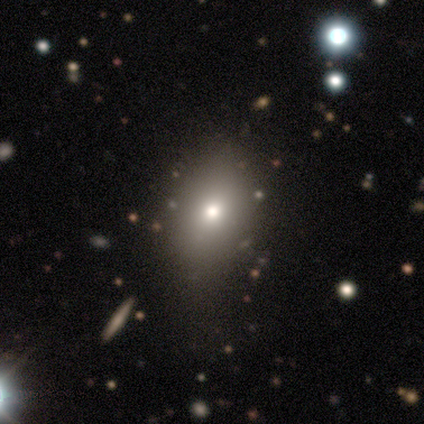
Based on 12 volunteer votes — Smooth or featured?
  - smooth: 92% *
  - star or artifact: 8%
  - featured or disk: 0%
How rounded?
  - in between: 91% *
  - round: 9%
  - cigar-shaped: 0%
Merging?
  - none: 64% *
  - minor disturbance: 27%
  - major disturbance: 9%
  - merger: 0%